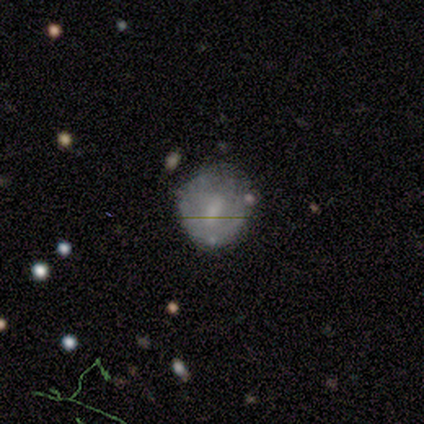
smooth 54%, featured or disk 43%, star or artifact 3%. Down the decision tree: how rounded — round (80%); merging — none (64%).